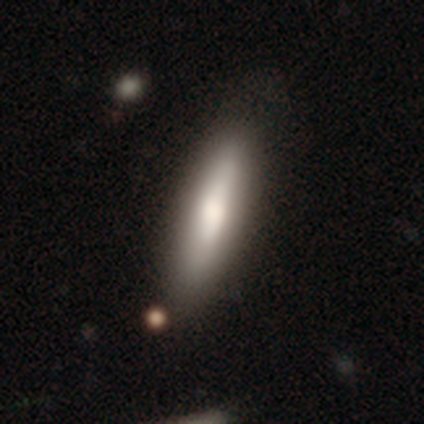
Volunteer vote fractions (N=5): Smooth or featured? 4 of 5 (80%) said smooth. How rounded? 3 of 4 (75%) said cigar-shaped. Merging? 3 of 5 (60%) said none.